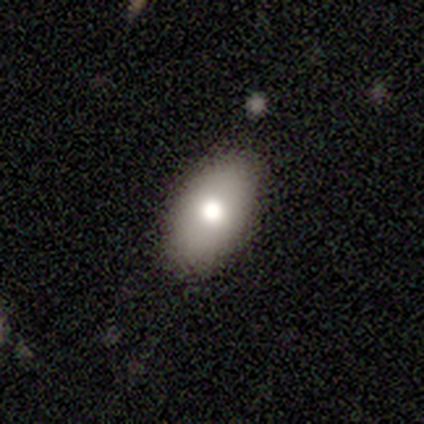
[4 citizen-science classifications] Smooth or featured: smooth — 75% (featured or disk — 25%)
How rounded: in between — 67% (cigar-shaped — 33%)
Merging: none — 75% (major disturbance — 25%)